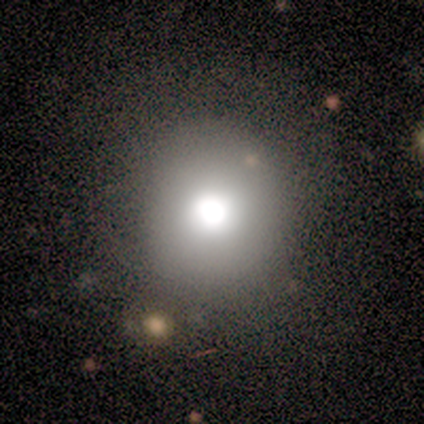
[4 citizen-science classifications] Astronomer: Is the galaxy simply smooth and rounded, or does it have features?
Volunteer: smooth — 75%.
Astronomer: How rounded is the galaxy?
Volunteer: round — 100%.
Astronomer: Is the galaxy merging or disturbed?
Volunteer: none — 67%.